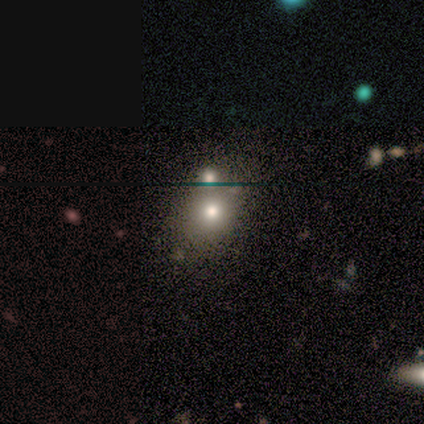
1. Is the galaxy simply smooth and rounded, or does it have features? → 80% smooth, 20% featured or disk, 0% star or artifact.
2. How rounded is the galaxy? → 75% round, 25% in between, 0% cigar-shaped.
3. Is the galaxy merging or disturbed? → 40% none (tied), 40% minor disturbance (tied), 20% merger, 0% major disturbance.